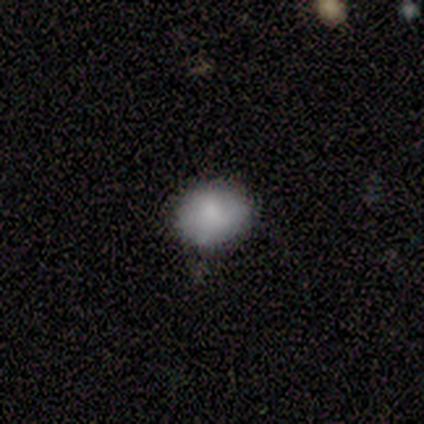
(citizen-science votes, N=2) smooth 100%, featured or disk 0%, star or artifact 0%. Down the decision tree: how rounded — round (50%, tied with in between); merging — none (100%).